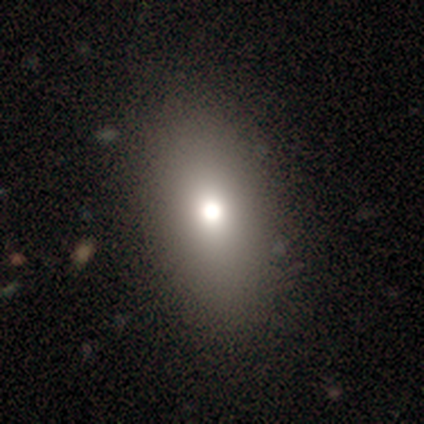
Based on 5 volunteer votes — Smooth or featured? 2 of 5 (40%, tied with star or artifact) said smooth. How rounded? 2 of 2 (100%) said in between. Merging? 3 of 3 (100%) said none.